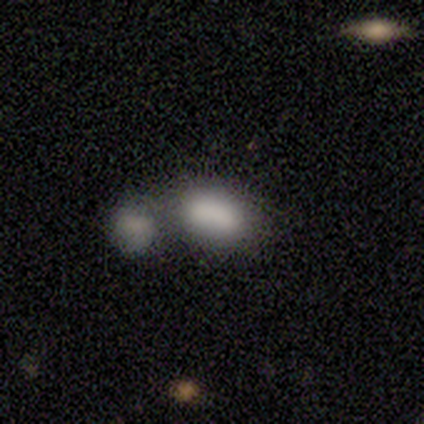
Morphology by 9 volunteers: Volunteers were most divided on "merging": merger: 50%, minor disturbance: 33%, none: 17%, major disturbance: 0%. More confident: how rounded — in between (100%); smooth or featured — smooth (56%).